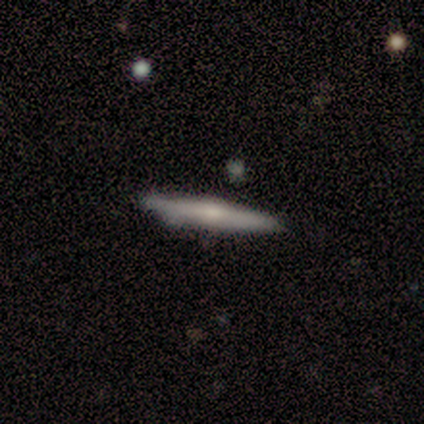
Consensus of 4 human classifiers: Q: Smooth or featured?
A: smooth (50%); runner-up: featured or disk (25%)
Q: How rounded?
A: cigar-shaped (100%)
Q: Merging?
A: none (67%); runner-up: minor disturbance (33%)